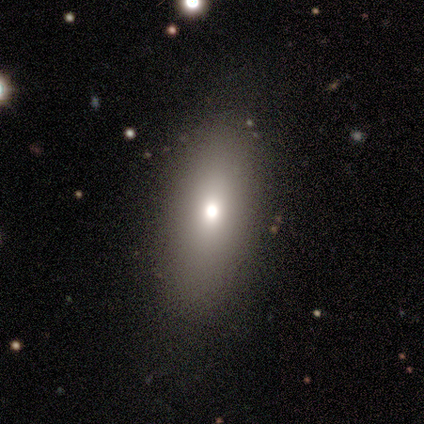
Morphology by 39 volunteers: This is clearly a smooth galaxy (85%). How rounded: likely in between (70%). Merging: likely none (79%).